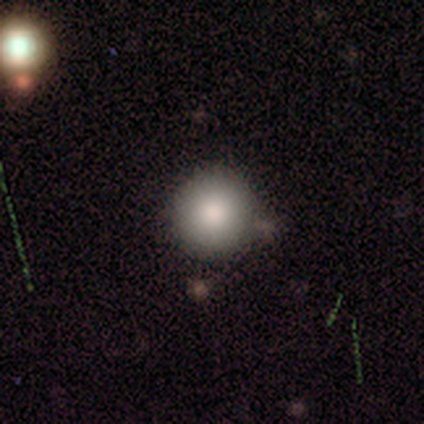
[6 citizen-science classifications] Smooth or featured? smooth (83%)
How rounded? round (100%)
Merging? none (60%)